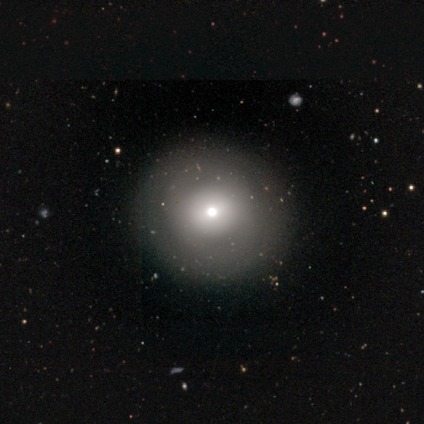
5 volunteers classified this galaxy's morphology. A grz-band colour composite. It shows a smooth galaxy with no disk features (60%) that is round (100%). Merging: none (80%).